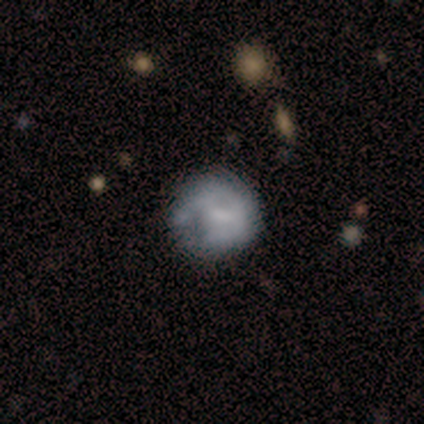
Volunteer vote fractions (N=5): Smooth or featured? 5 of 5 (100%) said featured or disk. Edge-on disk? 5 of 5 (100%) said no. Bar? 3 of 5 (60%) said weak. Spiral arms? 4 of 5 (80%) said no. Bulge size? 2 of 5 (40%, tied with none) said small. Merging? 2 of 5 (40%, tied with major disturbance) said none.